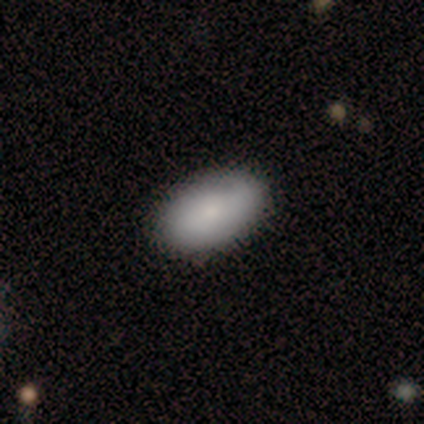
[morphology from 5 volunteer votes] Smooth or featured? smooth (80%)
How rounded? in between (75%)
Merging? none (100%)